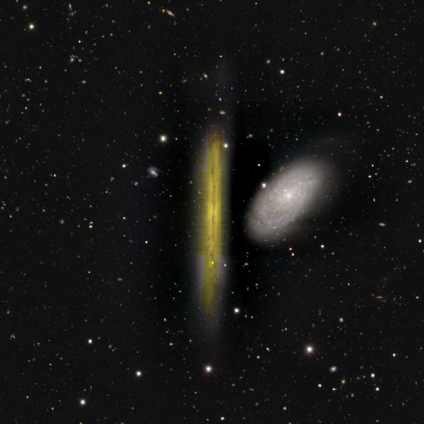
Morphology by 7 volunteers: A featured or disk galaxy (86%) viewed edge-on (83%) with no central bulge (100%). Merging: none (43%, tied with minor disturbance).